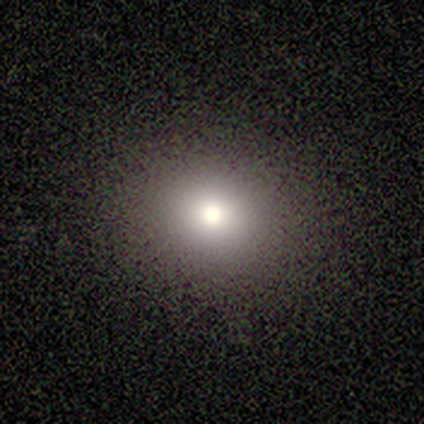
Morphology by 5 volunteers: Smooth or featured? smooth (60%)
How rounded? round (100%)
Merging? minor disturbance (50%)